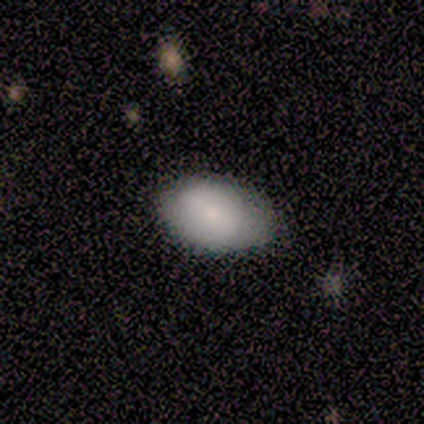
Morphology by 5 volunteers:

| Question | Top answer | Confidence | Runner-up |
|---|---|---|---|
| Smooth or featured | smooth | 100% | — |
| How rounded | in between | 100% | — |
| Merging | none | 60% | minor disturbance (20%) |